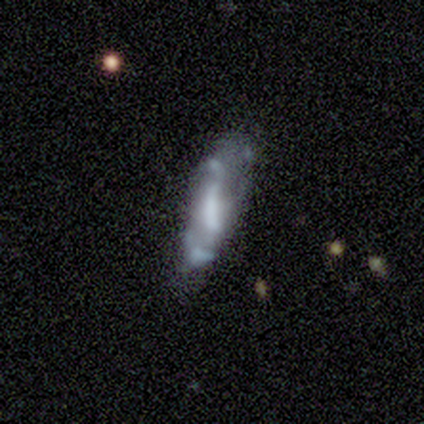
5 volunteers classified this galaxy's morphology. Smooth or featured: featured or disk — 80% (smooth — 20%)
Edge-on disk: no — 100%
Bar: no — 50% (strong — 25%)
Spiral arms: no — 75% (yes — 25%)
Bulge size: moderate — 50% (large — 25%)
Merging: minor disturbance — 40% (tied with major disturbance — 40%)